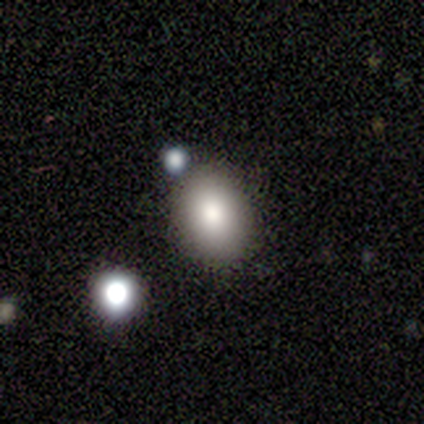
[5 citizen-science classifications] A smooth galaxy with no disk features (80%) that is in between round and cigar-shaped (75%). Merging: none (75%).